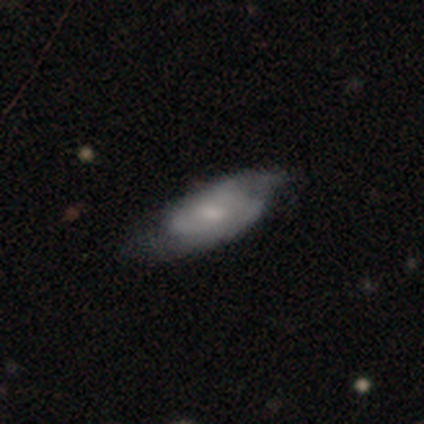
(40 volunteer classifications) featured or disk 78%, smooth 22%, star or artifact 0%. Down the decision tree: edge-on disk — no (94%); bar — no (55%); spiral arms — yes (86%); spiral arm count — 2 (72%); spiral winding — medium (52%); bulge size — moderate (41%, tied with small); merging — none (45%).